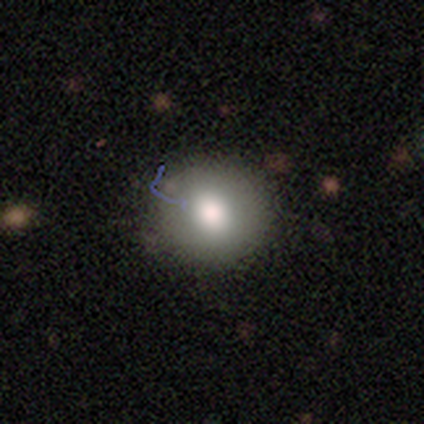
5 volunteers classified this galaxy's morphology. Smooth or featured? 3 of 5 (60%) said smooth. How rounded? 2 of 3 (67%) said round. Merging? 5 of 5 (100%) said none.